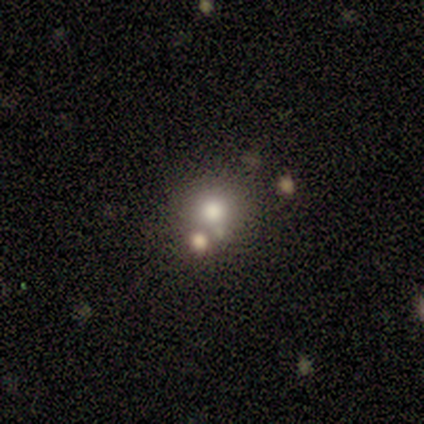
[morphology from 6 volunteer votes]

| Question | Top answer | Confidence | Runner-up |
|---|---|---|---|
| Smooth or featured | smooth | 100% | — |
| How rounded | round | 83% | in between (17%) |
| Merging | none | 67% | minor disturbance (17%) |